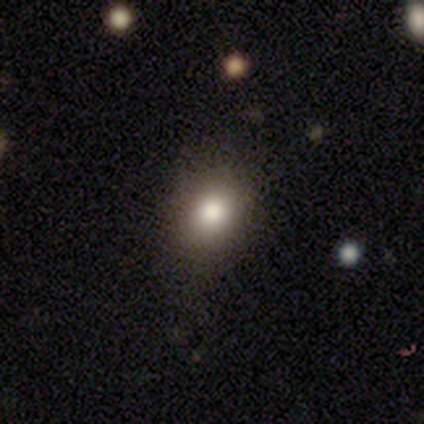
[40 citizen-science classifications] Smooth or featured? 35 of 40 (88%) said smooth. How rounded? 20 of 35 (57%) said in between. Merging? 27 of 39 (69%) said none.